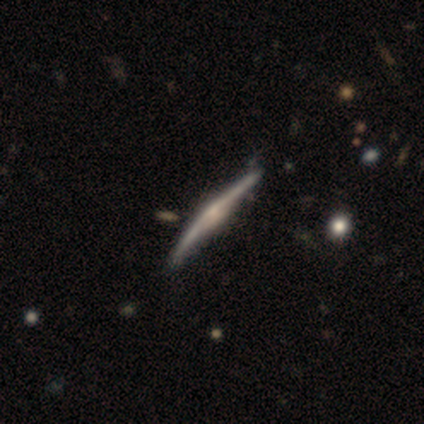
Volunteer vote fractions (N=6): This is clearly a featured or disk galaxy (83%). It is clearly viewed edge-on (100%). Edge-on bulge: likely rounded (60%). Merging: clearly none (83%).